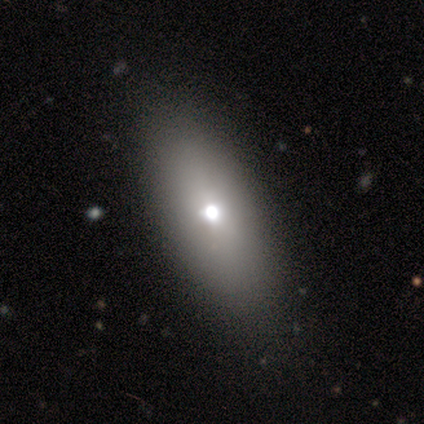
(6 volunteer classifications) This is clearly a smooth galaxy (83%). How rounded: clearly in between (100%). Merging: likely none (60%).